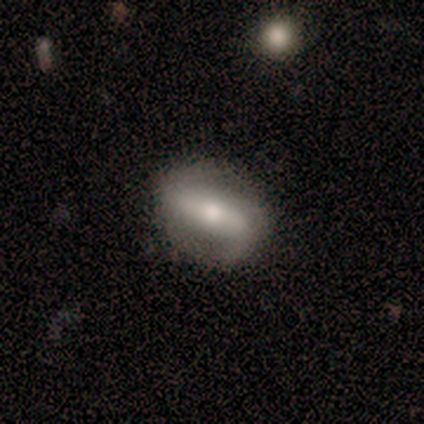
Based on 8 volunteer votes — Smooth or featured: featured or disk — 75% (smooth — 25%)
Edge-on disk: no — 100%
Bar: strong — 83% (weak — 17%)
Spiral arms: yes — 83% (no — 17%)
Spiral winding: loose — 60% (medium — 40%)
Spiral arm count: 2 — 100%
Bulge size: moderate — 67% (dominant — 17%)
Merging: none — 75% (minor disturbance — 25%)